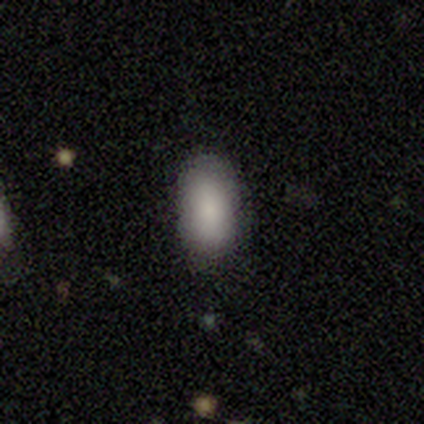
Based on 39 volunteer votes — Smooth or featured? smooth (85%)
How rounded? in between (97%)
Merging? none (81%)